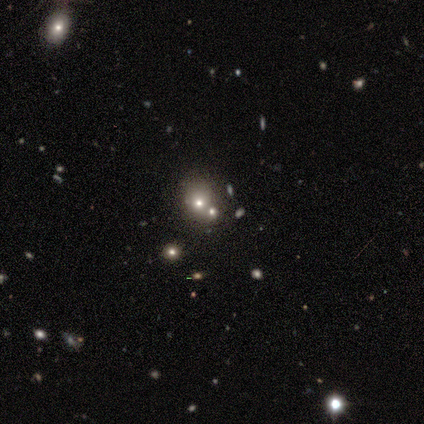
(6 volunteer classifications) Smooth or featured? smooth (67%)
How rounded? round (50%, tied with in between)
Merging? minor disturbance (50%)